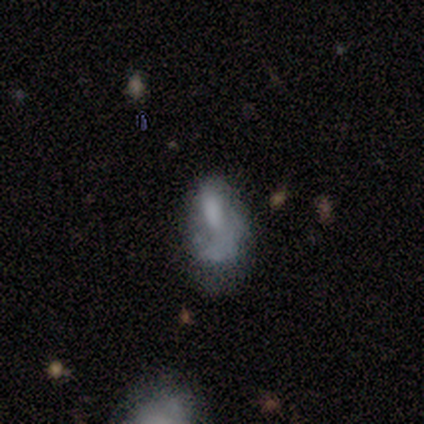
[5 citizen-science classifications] featured or disk 80%, smooth 20%, star or artifact 0%. Down the decision tree: edge-on disk — no (100%); bar — no (75%); spiral arms — no (100%); bulge size — none (50%); merging — major disturbance (80%).